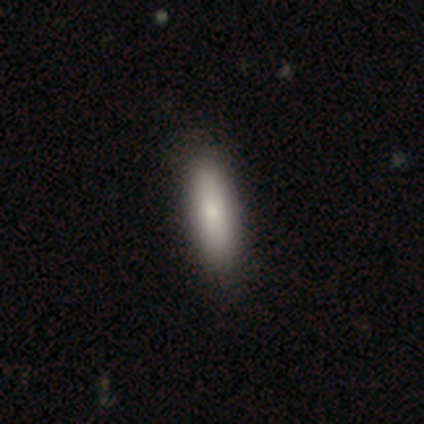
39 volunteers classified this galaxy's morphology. smooth_or_featured: smooth (p=0.92) [alt: star or artifact p=0.05]
how_rounded: in between (p=0.53) [alt: cigar-shaped p=0.47]
merging: none (p=0.59) [alt: minor disturbance p=0.08]